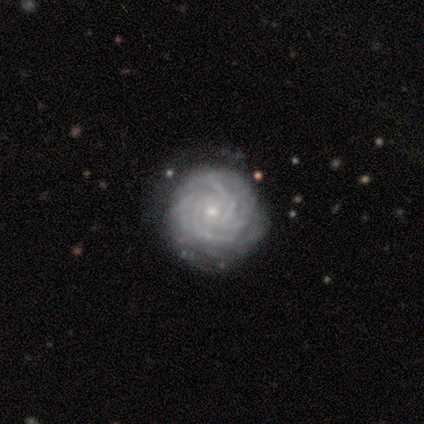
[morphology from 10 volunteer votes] This is clearly a featured or disk galaxy (90%). It is clearly not viewed edge-on (100%). Bar: clearly no (89%). Spiral arm pattern: clearly yes (100%). Spiral arm count: marginally 2 (33%). Spiral winding: clearly tight (89%). Central bulge: clearly small (89%). Merging: clearly none (90%).